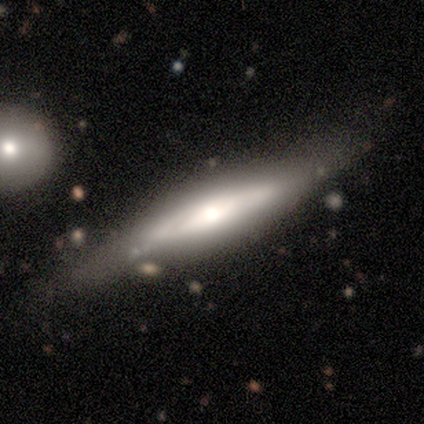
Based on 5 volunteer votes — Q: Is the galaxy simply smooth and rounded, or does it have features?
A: featured or disk — 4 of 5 (80%).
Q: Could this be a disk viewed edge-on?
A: yes — 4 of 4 (100%).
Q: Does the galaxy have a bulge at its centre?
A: rounded — 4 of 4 (100%).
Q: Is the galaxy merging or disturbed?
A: none — 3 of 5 (60%).